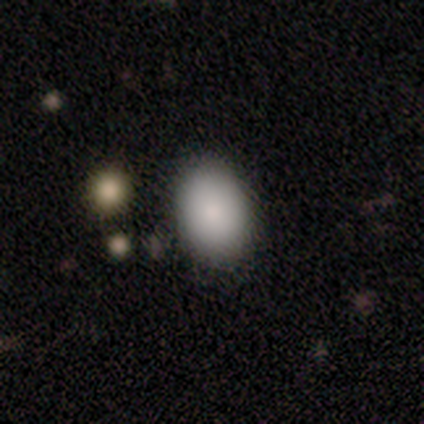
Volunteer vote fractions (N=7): Smooth or featured?
  - smooth: 86% *
  - star or artifact: 14%
  - featured or disk: 0%
How rounded?
  - in between: 83% *
  - round: 17%
  - cigar-shaped: 0%
Merging?
  - none: 100% *
  - minor disturbance: 0%
  - major disturbance: 0%
  - merger: 0%